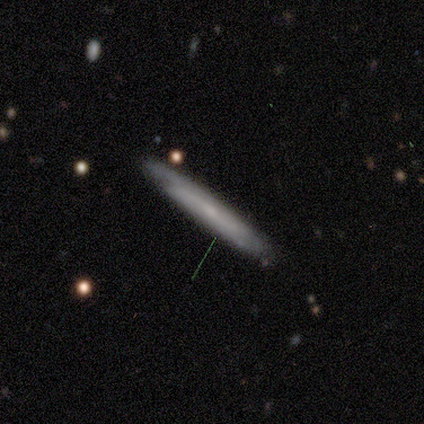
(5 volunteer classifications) A smooth galaxy with no disk features (80%) that is cigar-shaped (75%). Merging: none (60%).